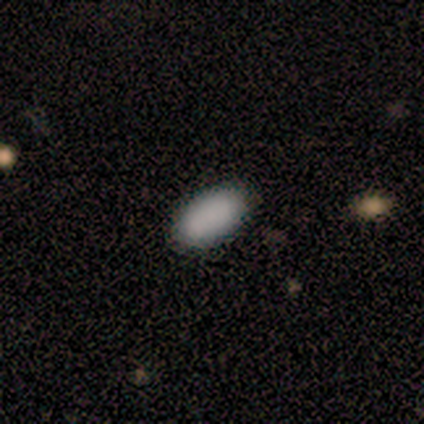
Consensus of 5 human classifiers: Q: Smooth or featured?
A: smooth (100%)
Q: How rounded?
A: in between (100%)
Q: Merging?
A: none (80%); runner-up: minor disturbance (20%)